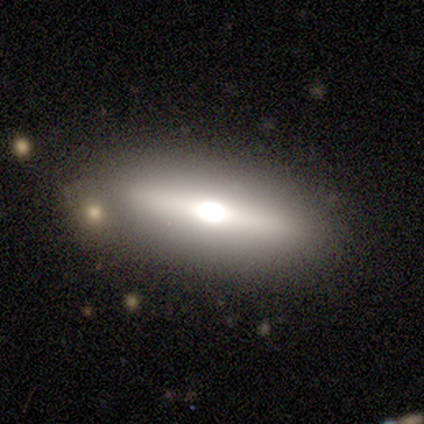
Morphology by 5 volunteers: This is likely a featured or disk galaxy (60%). It is clearly viewed edge-on (100%). Edge-on bulge: clearly rounded (100%). Merging: clearly none (100%).